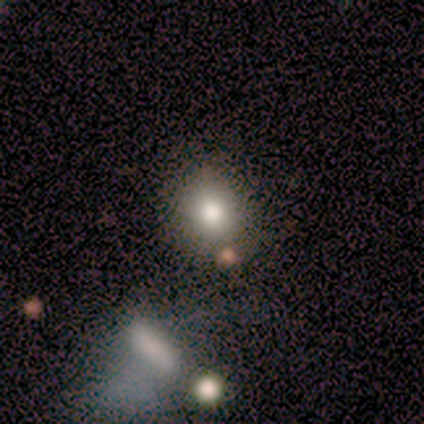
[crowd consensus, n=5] A smooth galaxy with no disk features (100%) that is round (100%).

Vote fractions:
- Smooth or featured? smooth: 100% / featured or disk: 0% / star or artifact: 0%
- How rounded? round: 100% / in between: 0% / cigar-shaped: 0%
- Merging? none: 100% / minor disturbance: 0% / major disturbance: 0% / merger: 0%